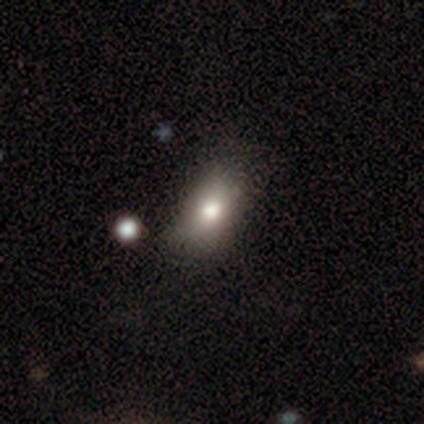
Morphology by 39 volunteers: Smooth or featured: smooth — 79% (featured or disk — 13%)
How rounded: in between — 90% (round — 6%)
Merging: none — 53% (minor disturbance — 14%)